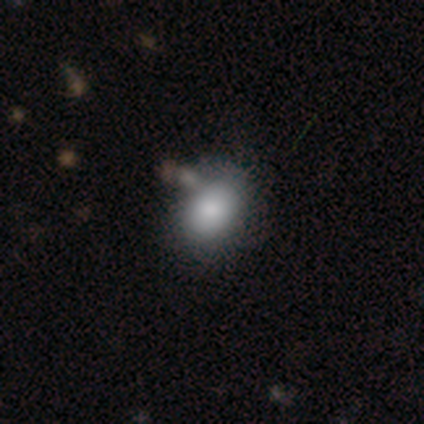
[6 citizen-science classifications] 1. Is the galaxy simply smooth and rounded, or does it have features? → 83% smooth, 17% star or artifact, 0% featured or disk.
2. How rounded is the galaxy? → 80% in between, 20% round, 0% cigar-shaped.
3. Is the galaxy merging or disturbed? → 40% none (tied), 40% merger (tied), 20% minor disturbance, 0% major disturbance.